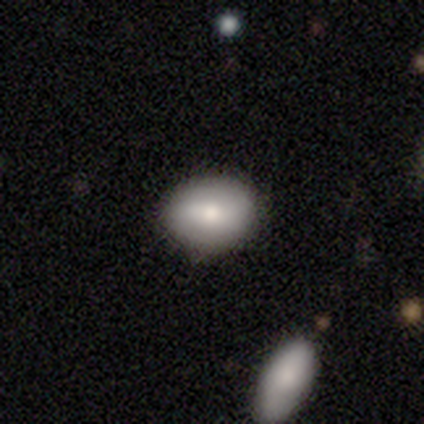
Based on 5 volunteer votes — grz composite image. It shows a smooth galaxy with no disk features (80%) that is in between round and cigar-shaped (100%). Merging: none (80%).